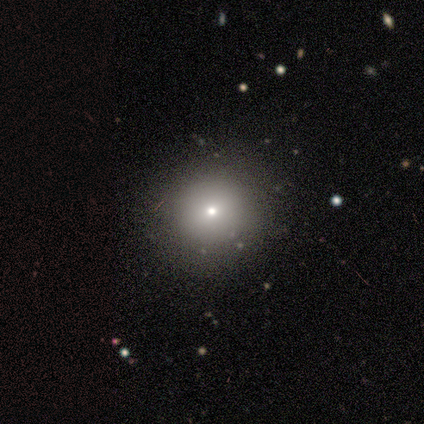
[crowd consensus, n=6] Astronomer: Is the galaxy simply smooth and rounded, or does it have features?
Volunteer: smooth — 100%.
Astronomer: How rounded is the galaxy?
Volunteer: round — 83%.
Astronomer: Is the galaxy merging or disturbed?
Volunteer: none — 83%.